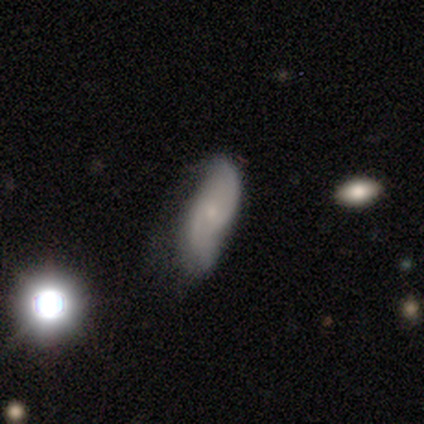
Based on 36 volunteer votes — This is likely a featured or disk galaxy (67%). It is clearly not viewed edge-on (88%). Bar: likely no (71%). Spiral arm pattern: clearly yes (86%). Spiral arm count: clearly 2 (83%). Spiral winding: possibly loose (56%). Central bulge: likely small (67%). Merging: marginally none (38%, tied with minor disturbance).